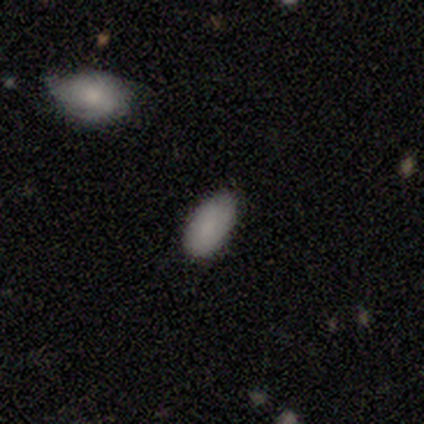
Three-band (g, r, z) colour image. It shows a smooth galaxy with no disk features (71%) that is in between round and cigar-shaped (100%). Merging: none (57%).